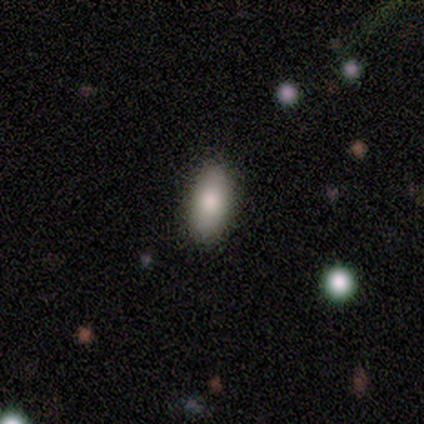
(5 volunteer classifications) A smooth galaxy with no disk features (80%) that is in between round and cigar-shaped (100%). Merging: none (100%).